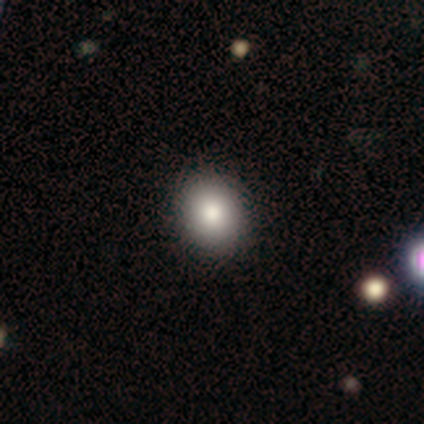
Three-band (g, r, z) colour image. It shows a smooth galaxy with no disk features (100%) that is round (100%). Merging: none (100%).